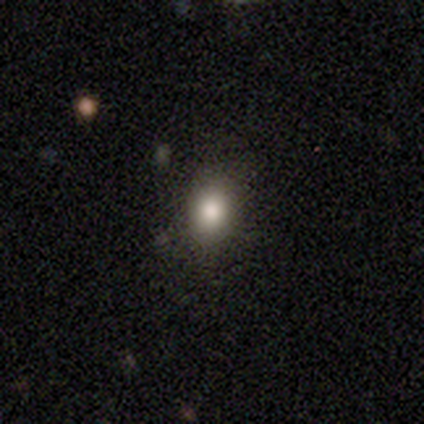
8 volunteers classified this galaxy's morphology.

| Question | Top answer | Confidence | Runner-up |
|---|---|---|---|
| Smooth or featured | smooth | 62% | star or artifact (38%) |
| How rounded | round | 40% | tied: in between (40%) |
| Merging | none | 100% | — |